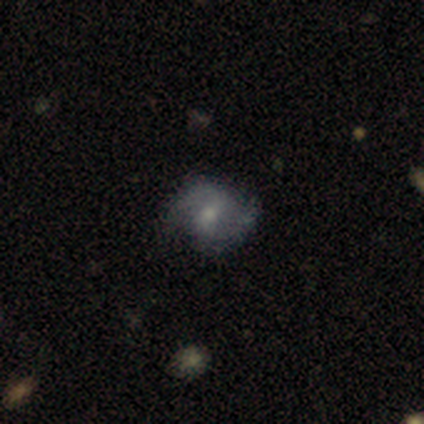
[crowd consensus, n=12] Smooth or featured: featured or disk — 58% (smooth — 42%)
Edge-on disk: no — 100%
Bar: weak — 57% (no — 29%)
Spiral arms: yes — 100%
Spiral winding: medium — 86% (loose — 14%)
Spiral arm count: 2 — 100%
Bulge size: moderate — 57% (small — 29%)
Merging: none — 83% (minor disturbance — 8%)